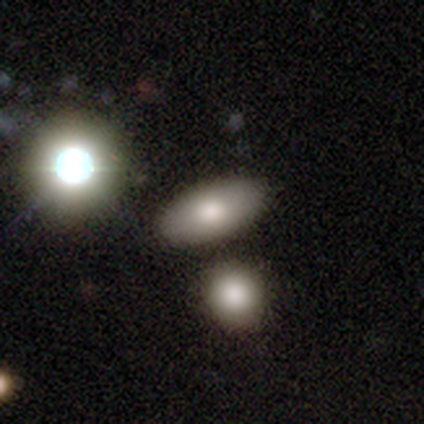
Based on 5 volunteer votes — This appears to be a smooth galaxy with no disk features (60%) that is in between round and cigar-shaped (100%). Merging: none (100%).